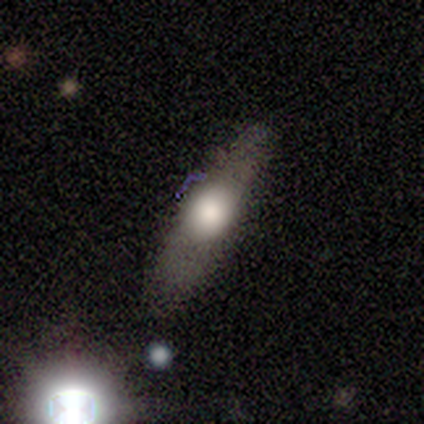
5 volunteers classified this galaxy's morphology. type=featured or disk (60%); edge-on=yes (67%); edge-on bulge=rounded (100%); merging=none (60%).